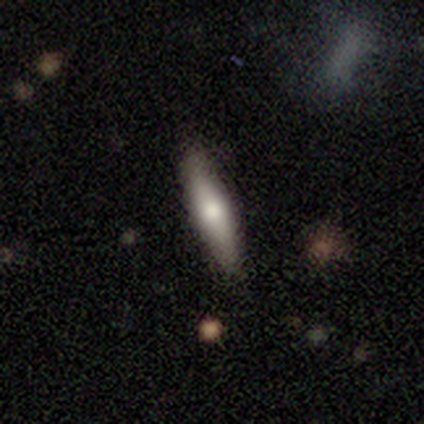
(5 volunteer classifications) Smooth or featured?
  - featured or disk: 60% *
  - smooth: 40%
  - star or artifact: 0%
Edge-on disk?
  - yes: 100% *
  - no: 0%
Edge-on bulge?
  - none: 67% *
  - rounded: 33%
  - boxy: 0%
Merging?
  - none: 100% *
  - minor disturbance: 0%
  - major disturbance: 0%
  - merger: 0%